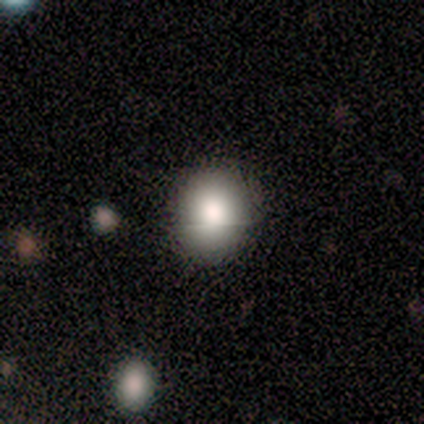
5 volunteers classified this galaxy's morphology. Volunteers were most divided on "how rounded": in between: 75%, round: 25%, cigar-shaped: 0%. More confident: merging — none (100%); smooth or featured — smooth (80%).